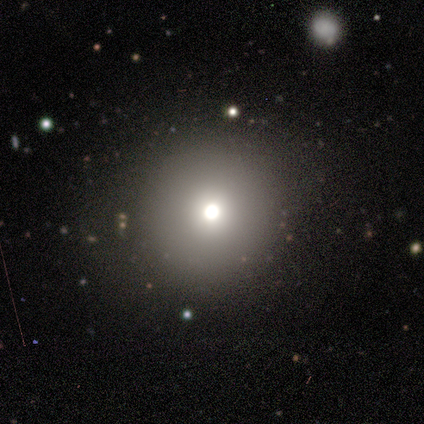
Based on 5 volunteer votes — smooth_or_featured: smooth (p=0.40) [tied with: star or artifact p=0.40]
how_rounded: round (p=1.00)
merging: none (p=1.00)